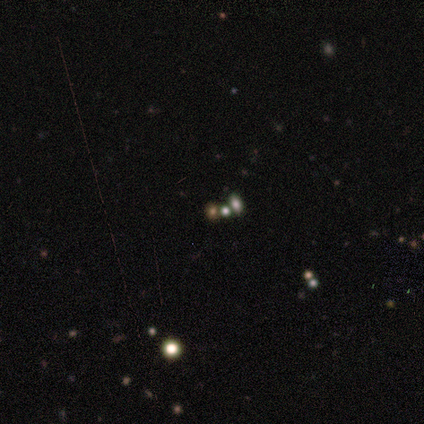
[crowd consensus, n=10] Q: Smooth or featured?
A: smooth (50%); tied with: star or artifact (50%)
Q: How rounded?
A: round (60%); runner-up: in between (40%)
Q: Merging?
A: none (60%); runner-up: minor disturbance (20%)